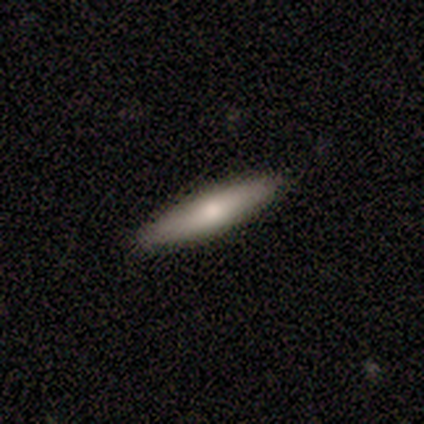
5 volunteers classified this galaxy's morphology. Smooth or featured?
  - smooth: 80% *
  - featured or disk: 20%
  - star or artifact: 0%
How rounded?
  - cigar-shaped: 75% *
  - in between: 25%
  - round: 0%
Merging?
  - none: 100% *
  - minor disturbance: 0%
  - major disturbance: 0%
  - merger: 0%